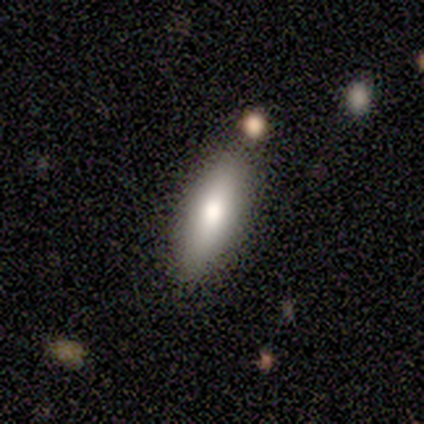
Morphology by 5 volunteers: A smooth galaxy with no disk features (80%) that is in between round and cigar-shaped (100%). Merging: none (80%).